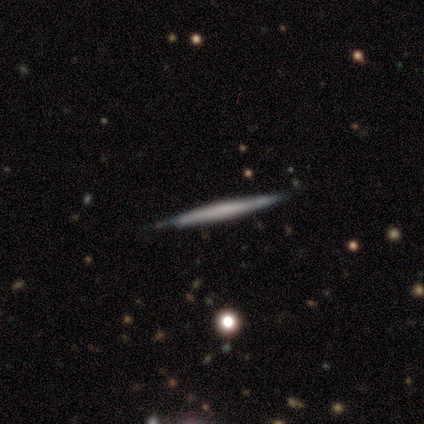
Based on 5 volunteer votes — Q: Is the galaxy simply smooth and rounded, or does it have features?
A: featured or disk — 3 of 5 (60%).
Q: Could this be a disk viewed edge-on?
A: yes — 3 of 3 (100%).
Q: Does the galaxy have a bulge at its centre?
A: none — 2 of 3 (67%).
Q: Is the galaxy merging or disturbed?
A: none — 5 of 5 (100%).